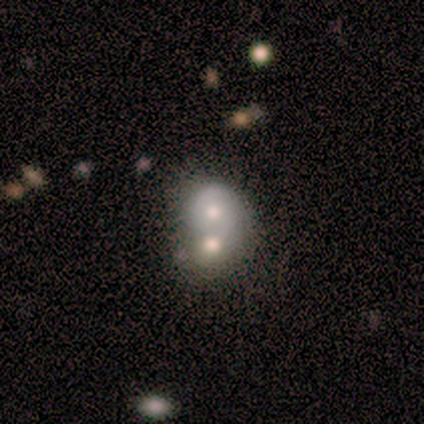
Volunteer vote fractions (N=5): Smooth or featured: smooth — 80% (featured or disk — 20%)
How rounded: in between — 75% (round — 25%)
Merging: merger — 100%